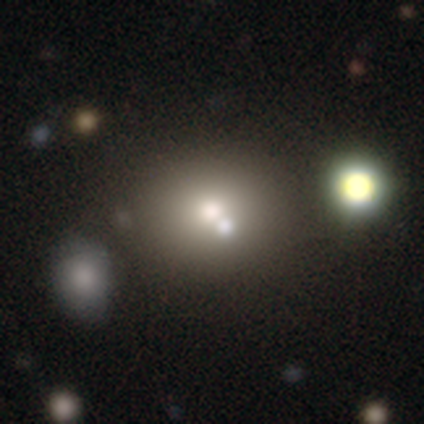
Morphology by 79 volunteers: Overall: smooth (70%). How rounded: round (69%; in between 31%). Merging: none (33%, tied with merger).